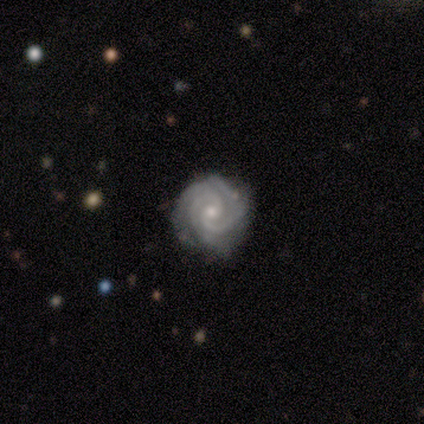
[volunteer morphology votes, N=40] Overall: featured or disk (90%). Edge-on disk: no (94%). Bar: no (71%). Spiral arms: yes (100%). Spiral arm count: 3 (41%; 2 35%). Spiral winding: tight (91%). Bulge size: small (79%). Merging: none (81%).